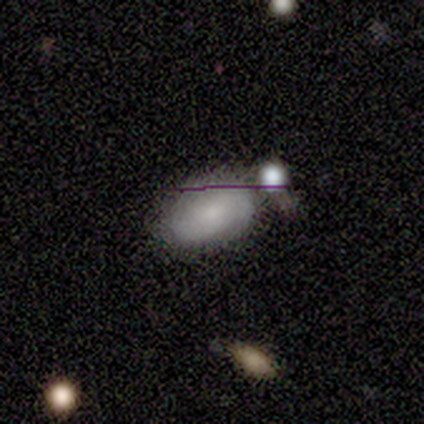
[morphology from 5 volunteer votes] A smooth galaxy with no disk features (60%) that is in between round and cigar-shaped (100%).

Vote fractions:
- Smooth or featured? smooth: 60% / featured or disk: 20% / star or artifact: 20%
- How rounded? in between: 100% / round: 0% / cigar-shaped: 0%
- Merging? none: 100% / minor disturbance: 0% / major disturbance: 0% / merger: 0%